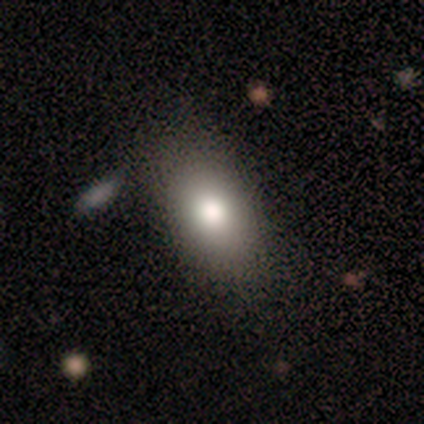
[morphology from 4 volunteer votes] This appears to be a smooth galaxy with no disk features (75%) that is in between round and cigar-shaped (67%). Merging: none (100%).